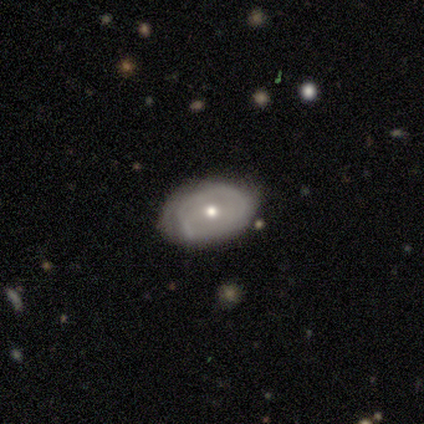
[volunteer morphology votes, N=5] smooth-or-featured: featured or disk: 80% | smooth: 20% | star or artifact: 0%
  disk-edge-on: no: 100% | yes: 0%
    bar: no: 75% | weak: 25% | strong: 0%
    has-spiral-arms: no: 100% | yes: 0%
    bulge-size: small: 100% | dominant: 0% | large: 0% | moderate: 0% | none: 0%
  merging: none: 80% | minor disturbance: 20% | major disturbance: 0% | merger: 0%